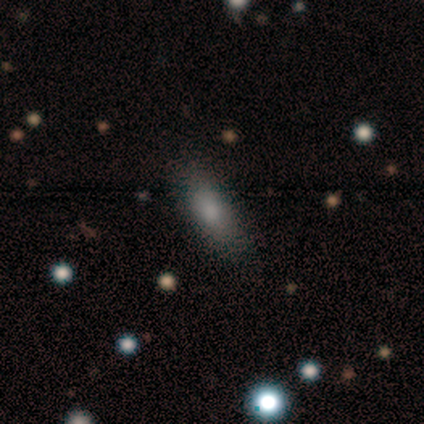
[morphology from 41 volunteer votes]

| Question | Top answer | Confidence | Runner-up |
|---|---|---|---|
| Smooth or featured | smooth | 85% | featured or disk (7%) |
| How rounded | in between | 74% | cigar-shaped (20%) |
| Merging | none | 89% | minor disturbance (8%) |